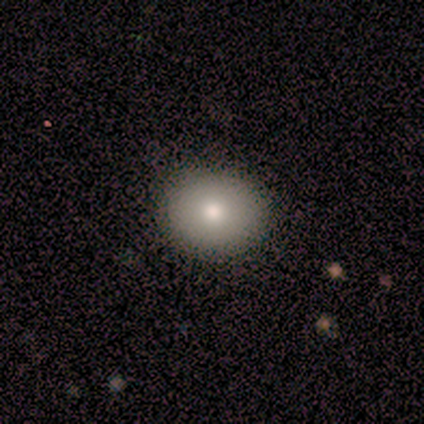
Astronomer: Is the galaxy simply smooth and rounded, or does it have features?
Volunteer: smooth — 100%.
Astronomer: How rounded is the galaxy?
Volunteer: round — 60% (runner-up: in between, 40%).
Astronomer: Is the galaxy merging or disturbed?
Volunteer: none — 80%.